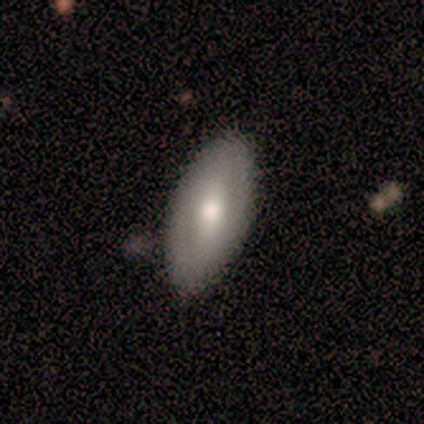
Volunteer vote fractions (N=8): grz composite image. It shows a smooth galaxy with no disk features (62%) that is in between round and cigar-shaped (100%). Merging: none (88%).